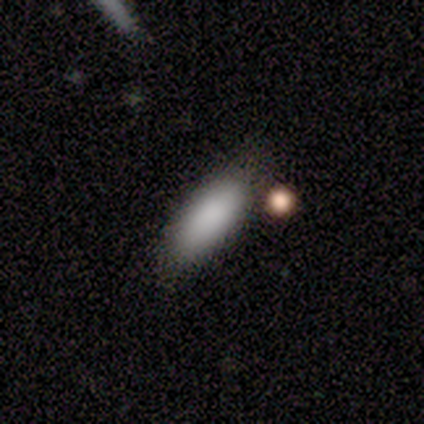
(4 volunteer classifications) Overall: smooth (100%). How rounded: cigar-shaped (75%). Merging: none (75%).